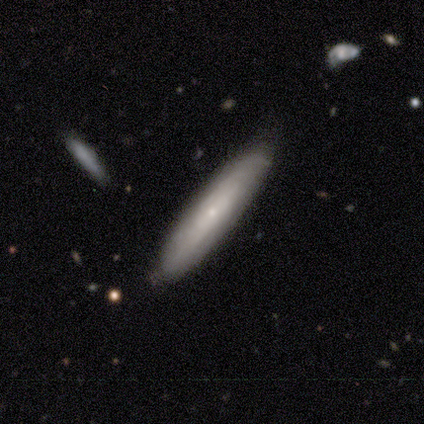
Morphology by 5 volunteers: Q: Smooth or featured?
A: featured or disk (80%); runner-up: smooth (20%)
Q: Edge-on disk?
A: yes (50%); tied with: no (50%)
Q: Edge-on bulge?
A: none (50%); tied with: rounded (50%)
Q: Merging?
A: none (80%); runner-up: minor disturbance (20%)